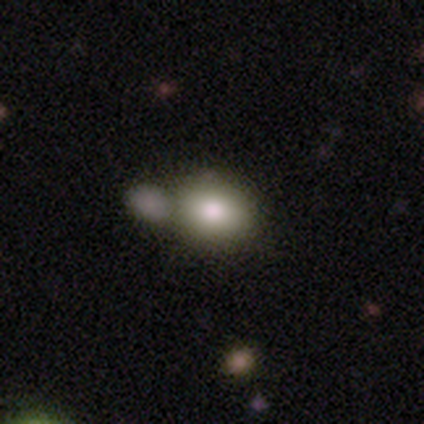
This is clearly a smooth galaxy (83%). How rounded: possibly in between (52%). Merging: possibly merger (56%).